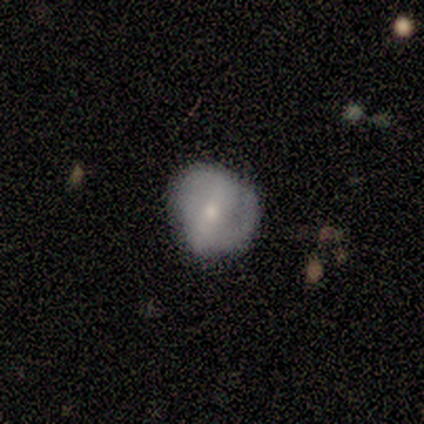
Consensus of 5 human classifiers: Volunteers were most divided on "bar": no: 67%, weak: 33%, strong: 0%. More confident: edge-on disk — no (100%); bulge size — small (100%); merging — none (75%); spiral arms — no (67%); smooth or featured — featured or disk (60%).